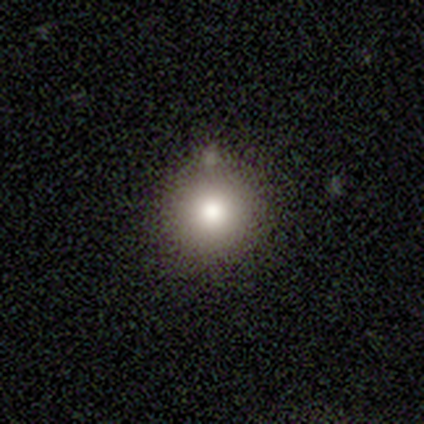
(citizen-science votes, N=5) A smooth galaxy with no disk features (60%) that is round (100%). Merging: none (100%).